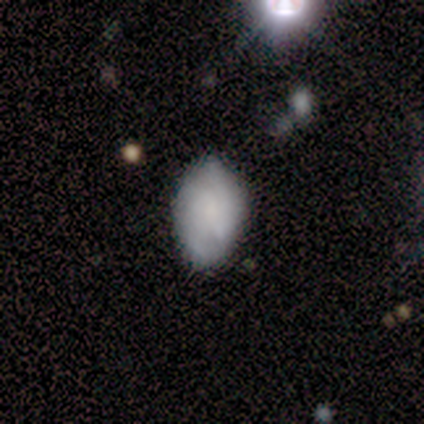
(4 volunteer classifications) Smooth or featured? 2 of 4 (50%, tied with featured or disk) said smooth. How rounded? 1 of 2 (50%, tied with cigar-shaped) said in between. Merging? 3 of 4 (75%) said minor disturbance.